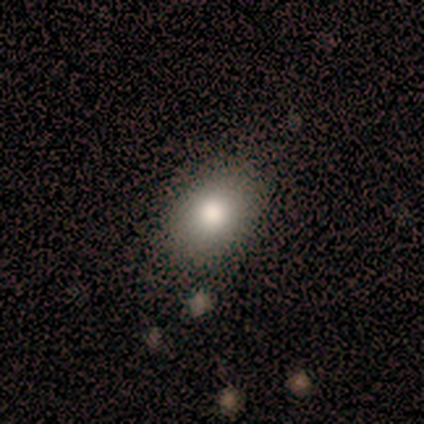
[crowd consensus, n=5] Smooth or featured: smooth — 60% (featured or disk — 20%)
How rounded: in between — 100%
Merging: none — 100%